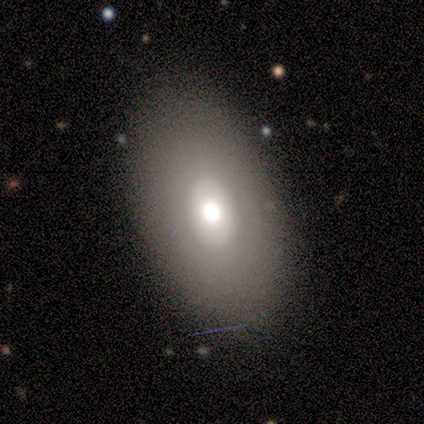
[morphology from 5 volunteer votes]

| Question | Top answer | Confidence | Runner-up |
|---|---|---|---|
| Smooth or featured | smooth | 60% | featured or disk (40%) |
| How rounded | in between | 100% | — |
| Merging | none | 80% | major disturbance (20%) |